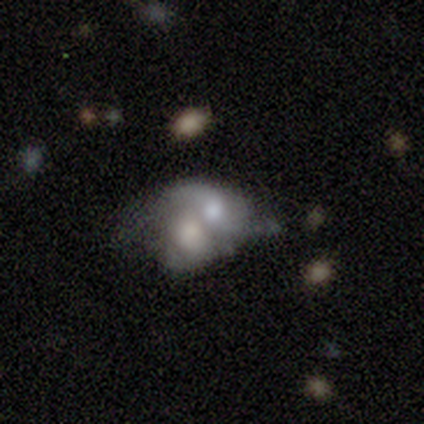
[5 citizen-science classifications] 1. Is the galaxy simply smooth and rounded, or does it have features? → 60% featured or disk, 40% smooth, 0% star or artifact.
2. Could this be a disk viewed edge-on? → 100% no, 0% yes.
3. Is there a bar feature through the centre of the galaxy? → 67% no, 33% weak, 0% strong.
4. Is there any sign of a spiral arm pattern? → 67% no, 33% yes.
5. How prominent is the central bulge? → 67% moderate, 33% large, 0% dominant, 0% small, 0% none.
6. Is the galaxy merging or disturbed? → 100% merger, 0% none, 0% minor disturbance, 0% major disturbance.